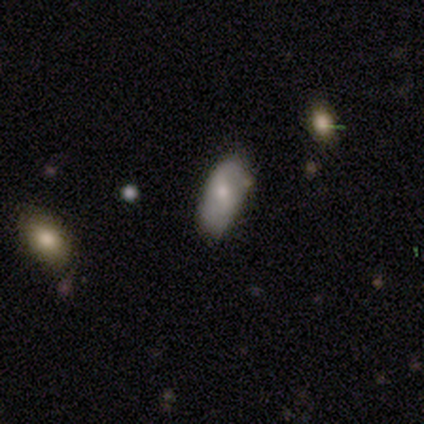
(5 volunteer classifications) Volunteers were most divided on "how rounded": in between: 60%, cigar-shaped: 40%, round: 0%. More confident: smooth or featured — smooth (100%); merging — minor disturbance (60%).